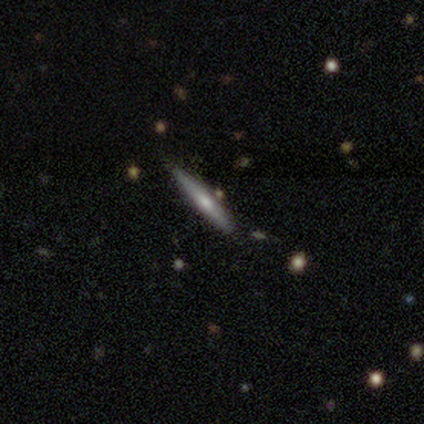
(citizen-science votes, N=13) Smooth or featured: smooth — 62% (featured or disk — 31%)
How rounded: cigar-shaped — 100%
Merging: none — 92% (minor disturbance — 8%)